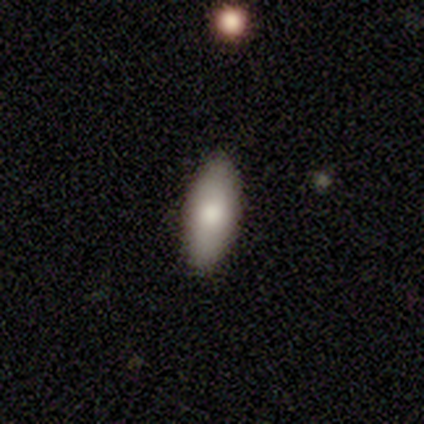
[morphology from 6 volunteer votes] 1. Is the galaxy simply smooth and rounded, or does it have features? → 100% smooth, 0% featured or disk, 0% star or artifact.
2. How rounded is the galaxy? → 67% in between, 33% cigar-shaped, 0% round.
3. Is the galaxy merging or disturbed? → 83% none, 17% minor disturbance, 0% major disturbance, 0% merger.